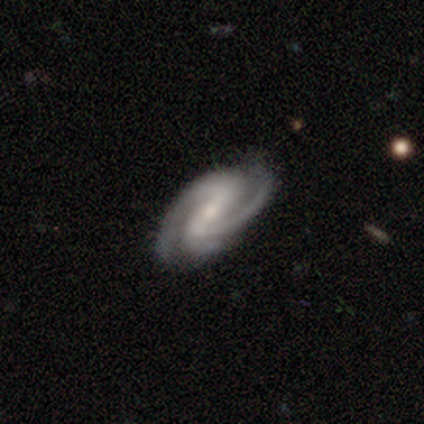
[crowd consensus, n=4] smooth_or_featured: featured or disk (p=1.00)
disk_edge_on: no (p=1.00)
bar: weak (p=0.75) [alt: strong p=0.25]
has_spiral_arms: yes (p=1.00)
spiral_winding: medium (p=1.00)
spiral_arm_count: 2 (p=0.50) [tied with: 3 p=0.50]
bulge_size: small (p=0.75) [alt: moderate p=0.25]
merging: none (p=0.75) [alt: minor disturbance p=0.25]